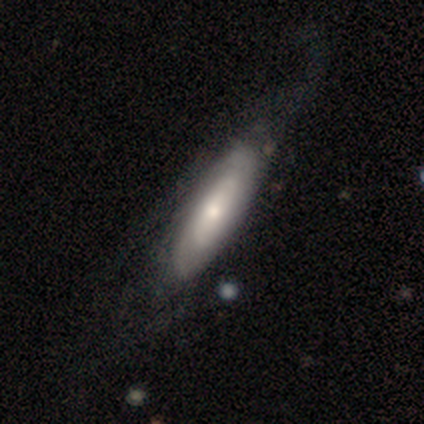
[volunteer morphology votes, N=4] smooth-or-featured: featured or disk: 75% | star or artifact: 25% | smooth: 0%
  disk-edge-on: no: 67% | yes: 33%
    bar: no: 100% | strong: 0% | weak: 0%
    has-spiral-arms: yes: 50% (tied) | no: 50% (tied)
      spiral-winding: tight: 100% | medium: 0% | loose: 0%
      spiral-arm-count: can't tell: 100% | 1: 0% | 2: 0% | 3: 0% | 4: 0% | more than 4: 0%
    bulge-size: large: 50% (tied) | small: 50% (tied) | dominant: 0% | moderate: 0% | none: 0%
  merging: none: 67% | minor disturbance: 33% | major disturbance: 0% | merger: 0%